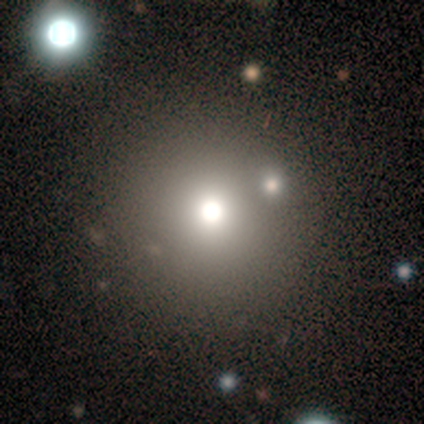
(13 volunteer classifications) Smooth or featured: smooth — 46% (featured or disk — 31%)
How rounded: round — 100%
Merging: none — 90% (merger — 10%)